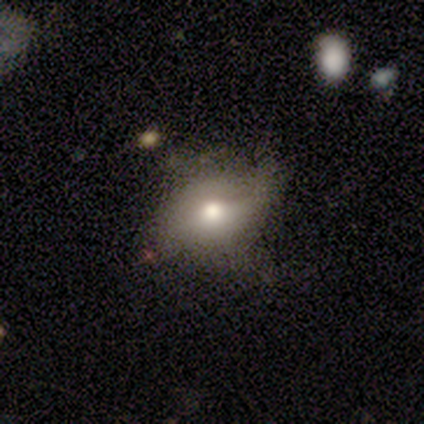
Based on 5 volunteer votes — Smooth or featured: smooth — 80% (featured or disk — 20%)
How rounded: in between — 100%
Merging: none — 60% (minor disturbance — 20%)